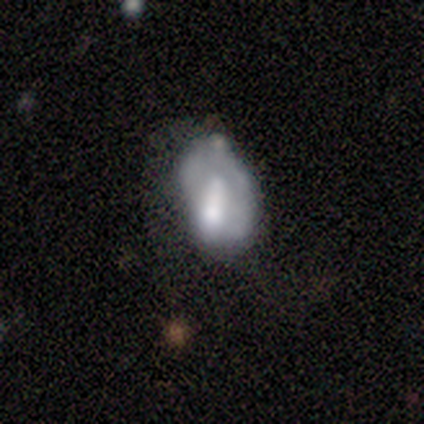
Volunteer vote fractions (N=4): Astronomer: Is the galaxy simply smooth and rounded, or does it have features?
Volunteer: featured or disk — 75%.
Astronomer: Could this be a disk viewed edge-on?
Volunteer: no — 100%.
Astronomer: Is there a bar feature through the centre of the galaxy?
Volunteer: no — 100%.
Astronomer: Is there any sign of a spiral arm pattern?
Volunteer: no — 100%.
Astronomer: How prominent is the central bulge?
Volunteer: moderate — 33%, tied with small and none at 33%.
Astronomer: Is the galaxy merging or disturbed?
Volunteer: major disturbance — 50%.